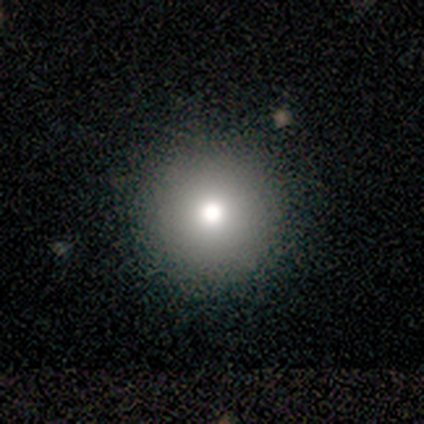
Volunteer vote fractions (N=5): smooth_or_featured: smooth (p=0.40) [tied with: featured or disk p=0.40]
how_rounded: round (p=1.00)
merging: none (p=1.00)